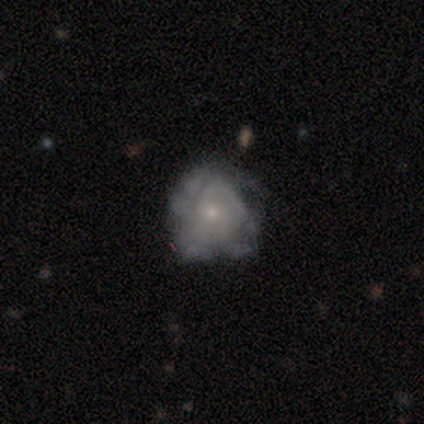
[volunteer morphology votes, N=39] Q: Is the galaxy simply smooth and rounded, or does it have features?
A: featured or disk — 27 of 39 (69%).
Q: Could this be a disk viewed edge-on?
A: no — 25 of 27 (93%).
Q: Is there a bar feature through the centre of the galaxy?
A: no — 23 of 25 (92%).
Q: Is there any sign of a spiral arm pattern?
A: yes — 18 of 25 (72%).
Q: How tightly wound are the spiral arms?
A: tight — 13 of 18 (72%).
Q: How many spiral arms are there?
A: can't tell — 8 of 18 (44%).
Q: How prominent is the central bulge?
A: small — 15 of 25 (60%).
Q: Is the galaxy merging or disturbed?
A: none — 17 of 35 (49%).